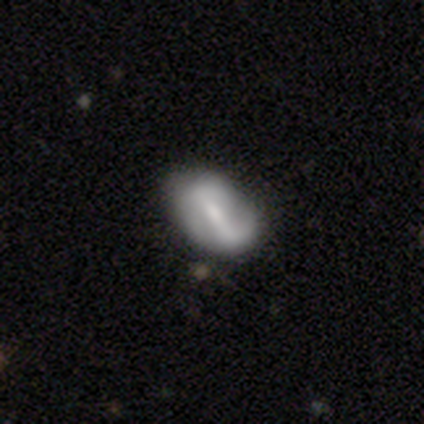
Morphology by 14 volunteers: Smooth or featured? 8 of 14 (57%) said featured or disk. Edge-on disk? 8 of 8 (100%) said no. Bar? 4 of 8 (50%) said weak. Spiral arms? 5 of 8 (62%) said no. Bulge size? 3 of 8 (38%) said moderate. Merging? 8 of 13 (62%) said none.